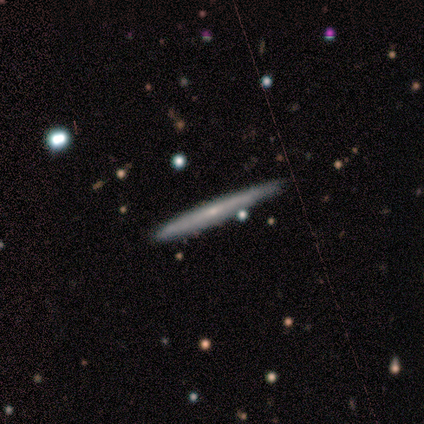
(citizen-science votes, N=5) Volunteers were most divided on "smooth or featured": smooth: 60%, featured or disk: 40%, star or artifact: 0%. More confident: how rounded — cigar-shaped (100%); merging — none (60%).